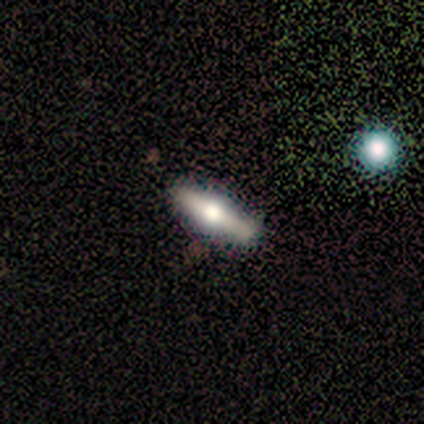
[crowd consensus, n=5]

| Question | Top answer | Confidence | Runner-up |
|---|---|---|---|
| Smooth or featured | smooth | 60% | featured or disk (20%) |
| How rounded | in between | 67% | cigar-shaped (33%) |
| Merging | none | 100% | — |